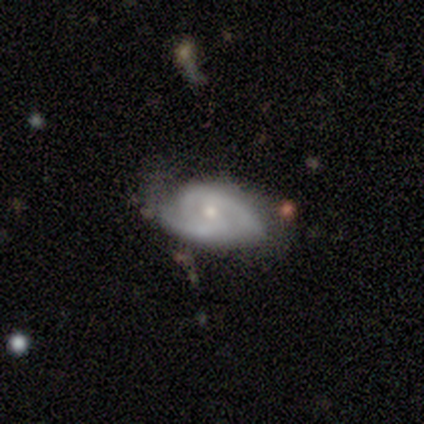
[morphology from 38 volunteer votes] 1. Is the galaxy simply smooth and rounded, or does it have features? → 79% featured or disk, 16% smooth, 5% star or artifact.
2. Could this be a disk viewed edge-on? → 93% no, 7% yes.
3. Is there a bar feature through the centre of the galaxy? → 82% no, 14% weak, 4% strong.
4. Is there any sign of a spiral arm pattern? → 96% yes, 4% no.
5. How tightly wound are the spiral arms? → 52% tight, 41% medium, 7% loose.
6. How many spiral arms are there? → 70% 2, 15% 3, 7% 1, 7% can't tell, 0% 4, 0% more than 4.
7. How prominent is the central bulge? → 61% small, 39% moderate, 0% dominant, 0% large, 0% none.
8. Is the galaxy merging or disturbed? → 53% none, 31% minor disturbance, 11% major disturbance, 6% merger.